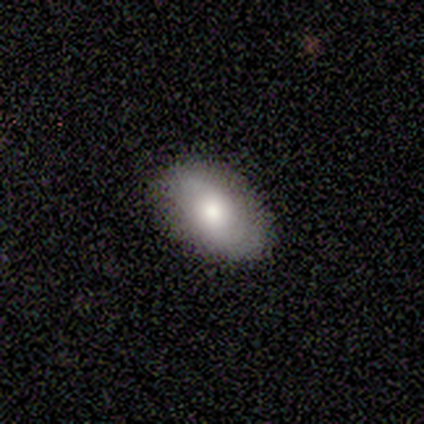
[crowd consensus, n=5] Smooth or featured? smooth (80%)
How rounded? in between (100%)
Merging? none (100%)